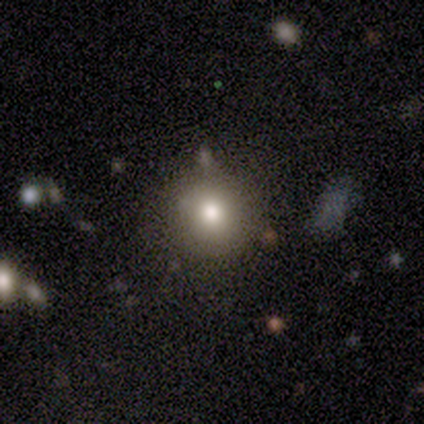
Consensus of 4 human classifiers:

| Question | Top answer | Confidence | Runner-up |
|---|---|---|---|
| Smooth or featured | smooth | 50% | tied: star or artifact (50%) |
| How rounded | round | 100% | — |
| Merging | none | 100% | — |